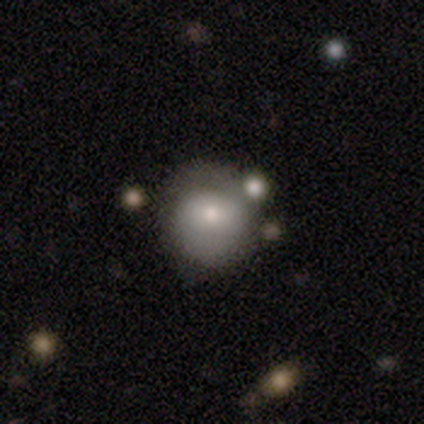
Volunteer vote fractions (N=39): Morphology: type=smooth (59%); roundness=round (91%); merging=none (68%).